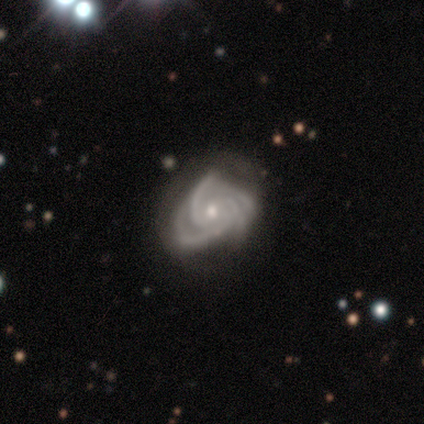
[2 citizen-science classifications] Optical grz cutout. It shows a featured or disk galaxy (100%) with no bar (100%), 4 (100%) tight (50%, tied with medium) spiral arms (100%) and a moderate central bulge (100%). Merging: none (100%).